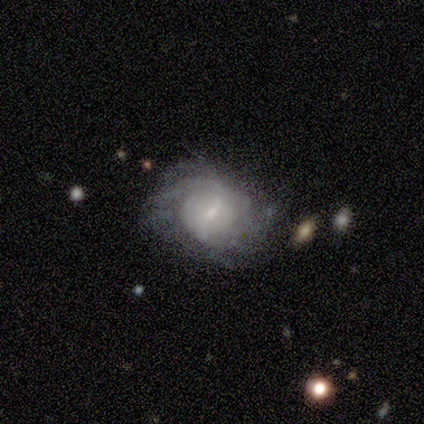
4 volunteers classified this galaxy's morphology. featured or disk 100%, smooth 0%, star or artifact 0%. Down the decision tree: edge-on disk — no (100%); bar — no (75%); spiral arms — yes (75%); spiral arm count — can't tell (67%); spiral winding — loose (100%); bulge size — small (75%); merging — none (100%).